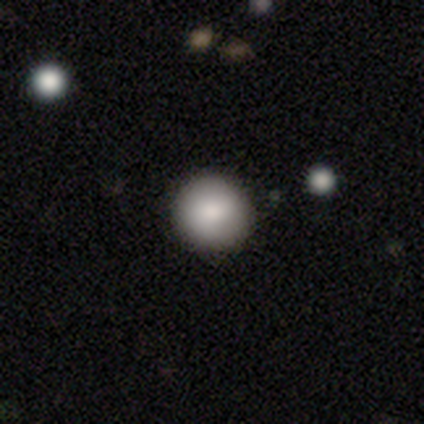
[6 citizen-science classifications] smooth_or_featured: smooth (p=1.00)
how_rounded: round (p=1.00)
merging: none (p=0.67) [alt: minor disturbance p=0.33]